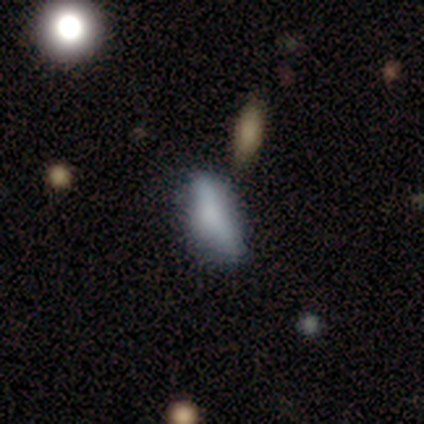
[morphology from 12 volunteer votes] Smooth or featured? smooth (50%)
How rounded? in between (83%)
Merging? none (60%)